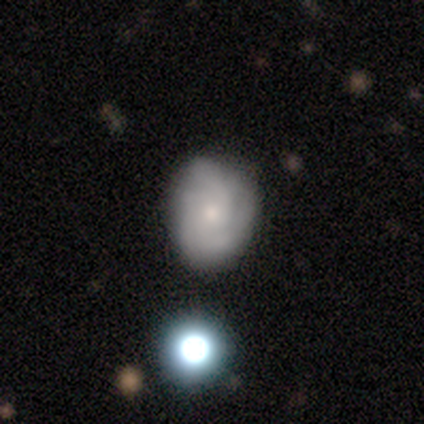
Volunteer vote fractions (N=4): This is possibly a featured or disk galaxy (50%). It is clearly not viewed edge-on (100%). Bar: clearly no (100%). Spiral arm pattern: clearly yes (100%). Spiral arm count: possibly 3 (50%, tied with can't tell). Spiral winding: clearly tight (100%). Central bulge: clearly small (100%). Merging: clearly none (100%).